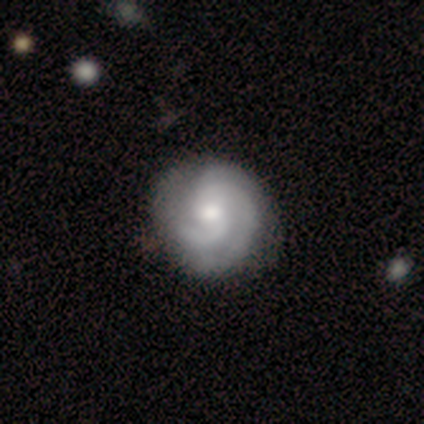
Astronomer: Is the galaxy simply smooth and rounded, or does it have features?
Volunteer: featured or disk — 100%.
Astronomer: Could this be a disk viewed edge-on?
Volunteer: no — 100%.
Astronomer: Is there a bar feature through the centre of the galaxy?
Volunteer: weak — 50%, tied with no at 50%.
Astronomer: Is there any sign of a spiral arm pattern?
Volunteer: yes — 100%.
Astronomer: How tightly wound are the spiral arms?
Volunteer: tight — 58% (runner-up: medium, 42%).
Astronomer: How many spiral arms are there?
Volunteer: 3 — 58%.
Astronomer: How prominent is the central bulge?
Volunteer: moderate — 75%.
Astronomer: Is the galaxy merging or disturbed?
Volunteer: none — 75%.